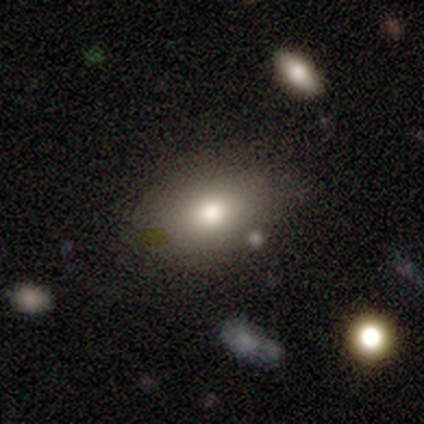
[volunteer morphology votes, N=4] smooth_or_featured: smooth (p=0.75) [alt: star or artifact p=0.25]
how_rounded: in between (p=0.67) [alt: round p=0.33]
merging: none (p=0.67) [alt: minor disturbance p=0.33]